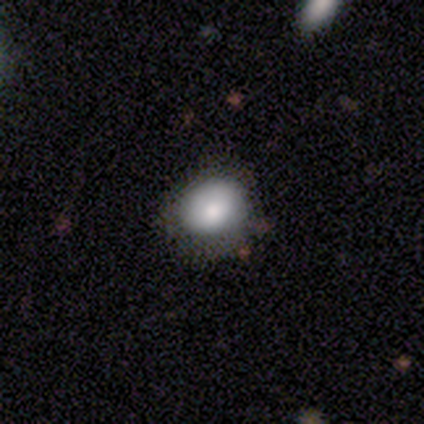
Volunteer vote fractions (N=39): Smooth or featured?
  - smooth: 77% *
  - featured or disk: 15%
  - star or artifact: 8%
How rounded?
  - round: 60% *
  - in between: 40%
  - cigar-shaped: 0%
Merging?
  - none: 81% *
  - minor disturbance: 14%
  - major disturbance: 6%
  - merger: 0%